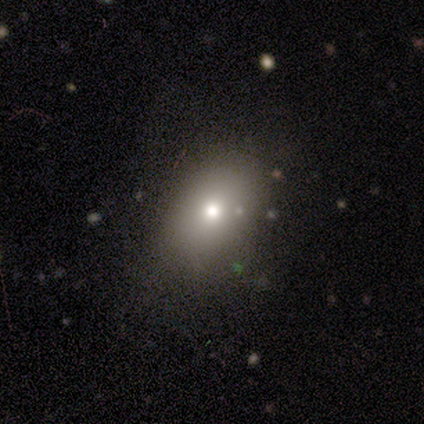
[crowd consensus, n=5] Overall: smooth (100%). How rounded: in between (100%). Merging: none (80%).